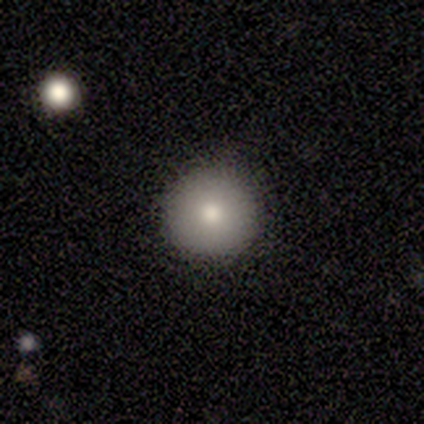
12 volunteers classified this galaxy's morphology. Smooth or featured? 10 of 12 (83%) said smooth. How rounded? 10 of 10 (100%) said round. Merging? 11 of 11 (100%) said none.